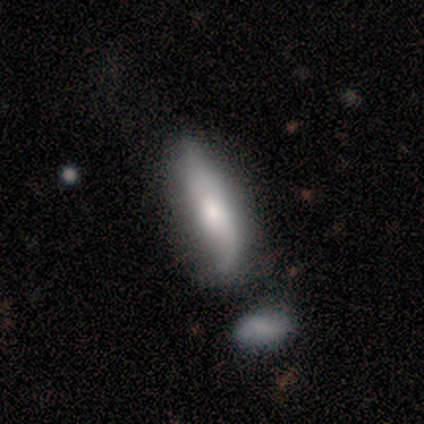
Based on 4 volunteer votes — Smooth or featured? 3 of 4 (75%) said smooth. How rounded? 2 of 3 (67%) said cigar-shaped. Merging? 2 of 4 (50%, tied with merger) said minor disturbance.